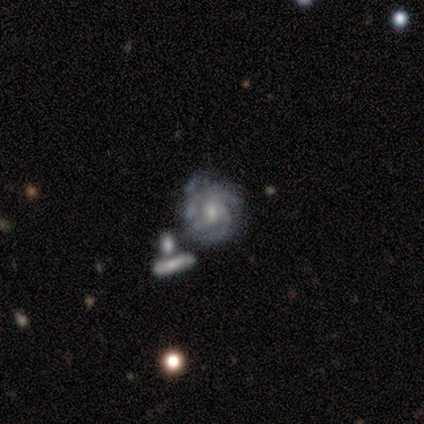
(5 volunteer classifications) Smooth or featured: featured or disk — 80% (smooth — 20%)
Edge-on disk: no — 100%
Bar: no — 75% (weak — 25%)
Spiral arms: yes — 100%
Spiral winding: loose — 50% (tight — 25%)
Spiral arm count: can't tell — 75% (3 — 25%)
Bulge size: small — 75% (moderate — 25%)
Merging: minor disturbance — 60% (none — 40%)